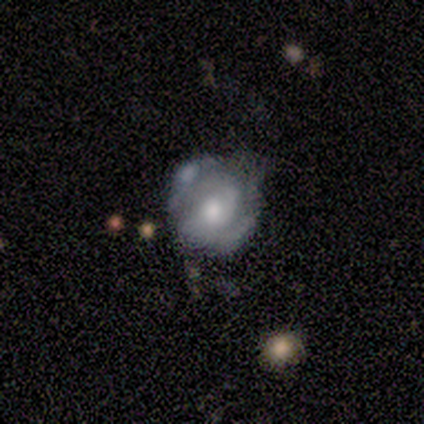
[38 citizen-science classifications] A featured or disk galaxy (66%) with no bar (76%), 2 (77%) tight (55%) spiral arms (88%) and a moderate central bulge (64%). Merging: none (55%).